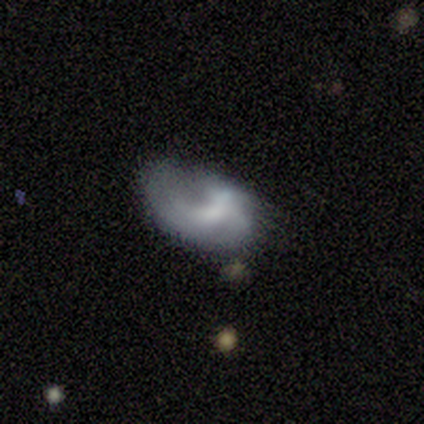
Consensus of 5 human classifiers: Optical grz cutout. It shows a featured or disk galaxy (60%) with a strong bar (33%, tied with weak and no), 1 (50%, tied with can't tell) tight (50%, tied with loose) spiral arms (67%) and a moderate central bulge (33%, tied with small and none). Merging: minor disturbance (80%).